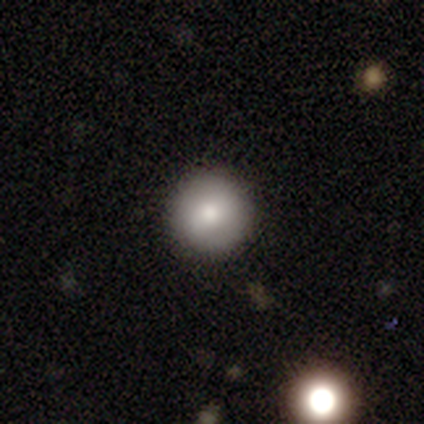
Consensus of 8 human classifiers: smooth_or_featured: featured or disk (p=0.75) [alt: smooth p=0.12]
disk_edge_on: no (p=1.00)
bar: no (p=0.83) [alt: strong p=0.17]
has_spiral_arms: no (p=0.83) [alt: yes p=0.17]
bulge_size: moderate (p=0.67) [alt: dominant p=0.17]
merging: none (p=1.00)